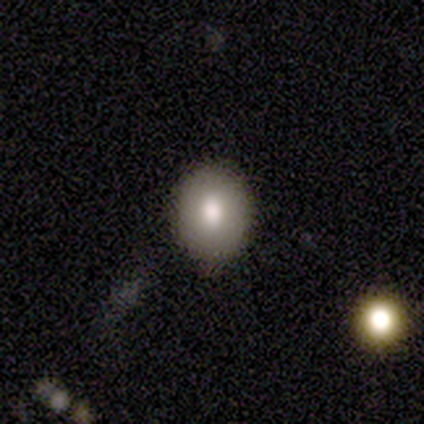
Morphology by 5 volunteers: This is clearly a smooth galaxy (100%). How rounded: clearly in between (80%). Merging: clearly none (80%).